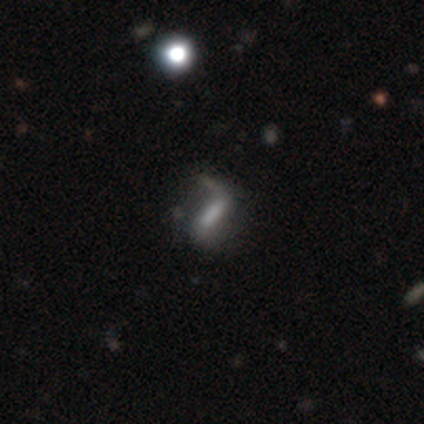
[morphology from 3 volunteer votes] This appears to be a smooth galaxy with no disk features (67%) that is cigar-shaped (100%). Merging: none (67%).